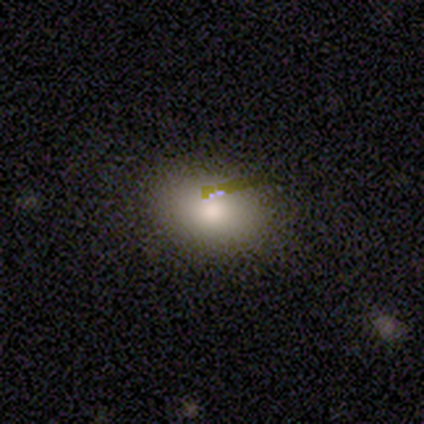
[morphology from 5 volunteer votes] A smooth galaxy with no disk features (80%) that is in between round and cigar-shaped (100%).

Vote fractions:
- Smooth or featured? smooth: 80% / featured or disk: 20% / star or artifact: 0%
- How rounded? in between: 100% / round: 0% / cigar-shaped: 0%
- Merging? none: 100% / minor disturbance: 0% / major disturbance: 0% / merger: 0%